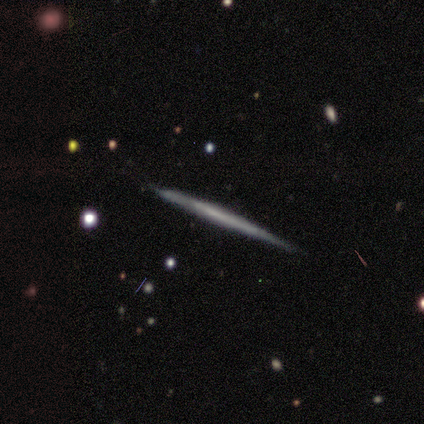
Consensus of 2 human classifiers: Morphology: type=smooth (50%, tied with featured or disk); roundness=cigar-shaped (100%); merging=none (100%).